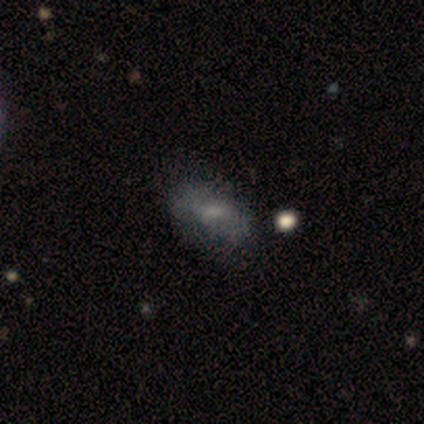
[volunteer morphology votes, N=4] This is likely a smooth galaxy (75%). How rounded: clearly in between (100%). Merging: likely none (75%).